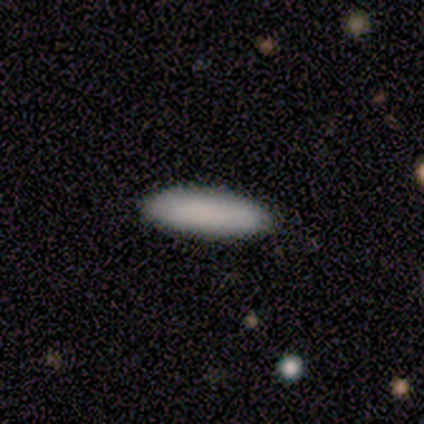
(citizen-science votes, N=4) Smooth or featured? smooth (100%)
How rounded? in between (75%)
Merging? none (100%)